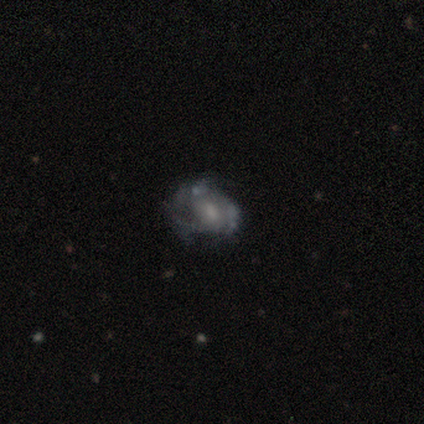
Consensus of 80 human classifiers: This is clearly a featured or disk galaxy (81%). It is clearly not viewed edge-on (98%). Bar: likely no (67%). Spiral arm pattern: possibly yes (56%). Spiral arm count: possibly can't tell (50%). Spiral winding: marginally tight (42%). Central bulge: marginally small (39%). Merging: marginally none (23%).